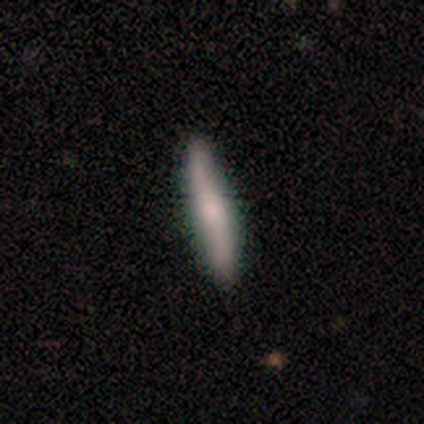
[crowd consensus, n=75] Volunteers were most divided on "smooth or featured": smooth: 68%, featured or disk: 28%, star or artifact: 4%. More confident: merging — none (89%); how rounded — cigar-shaped (88%).